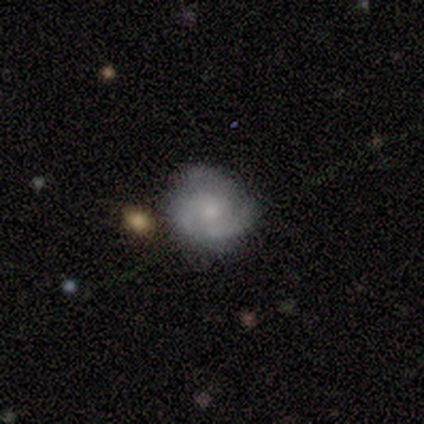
smooth-or-featured: smooth: 100% | featured or disk: 0% | star or artifact: 0%
  how-rounded: round: 100% | in between: 0% | cigar-shaped: 0%
  merging: none: 100% | minor disturbance: 0% | major disturbance: 0% | merger: 0%